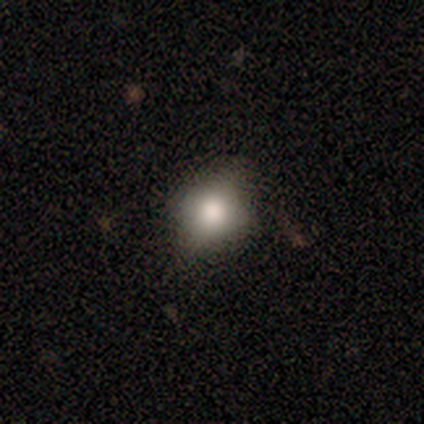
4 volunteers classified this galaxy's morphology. Smooth or featured? 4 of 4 (100%) said smooth. How rounded? 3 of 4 (75%) said round. Merging? 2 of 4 (50%, tied with minor disturbance) said none.